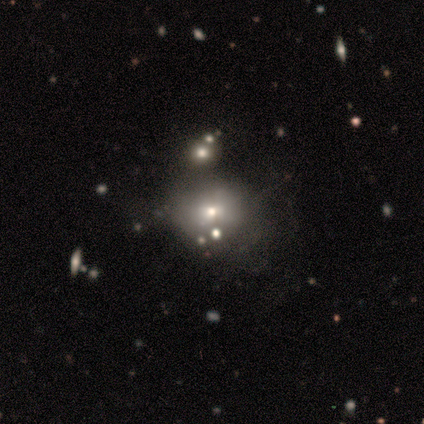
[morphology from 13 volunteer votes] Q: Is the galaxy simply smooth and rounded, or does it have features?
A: smooth — 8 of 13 (62%).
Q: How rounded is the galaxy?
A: round — 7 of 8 (88%).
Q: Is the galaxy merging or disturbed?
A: none — 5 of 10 (50%).